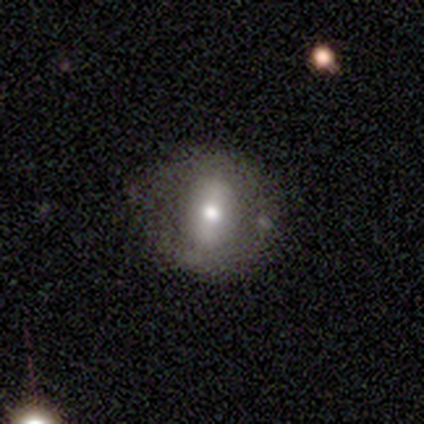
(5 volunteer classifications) A featured or disk galaxy (60%) with a weak bar (67%), no spiral arms (100%) and a moderate central bulge (100%). Merging: none (80%).